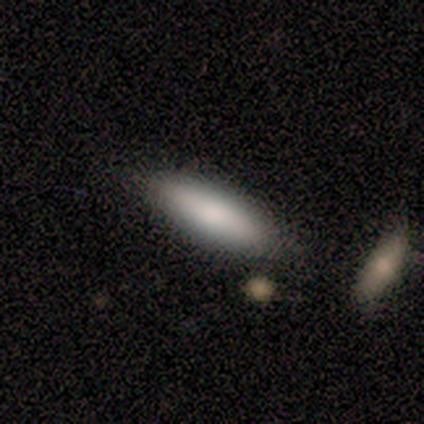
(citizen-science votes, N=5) A smooth galaxy with no disk features (60%) that is in between round and cigar-shaped (67%).

Vote fractions:
- Smooth or featured? smooth: 60% / featured or disk: 40% / star or artifact: 0%
- How rounded? in between: 67% / cigar-shaped: 33% / round: 0%
- Merging? none: 40% (tied) / minor disturbance: 40% (tied) / major disturbance: 20% / merger: 0%